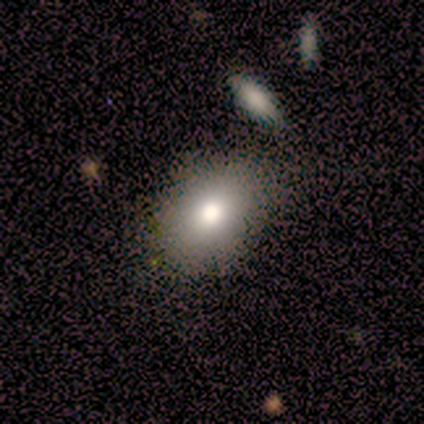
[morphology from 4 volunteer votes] smooth_or_featured: smooth (p=0.75) [alt: featured or disk p=0.25]
how_rounded: in between (p=0.67) [alt: round p=0.33]
merging: none (p=1.00)